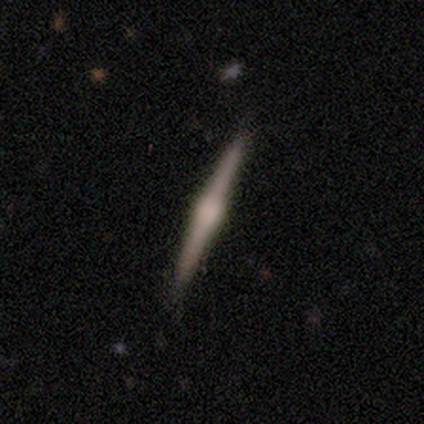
Q: Smooth or featured?
A: featured or disk (100%)
Q: Edge-on disk?
A: yes (100%)
Q: Edge-on bulge?
A: rounded (67%); runner-up: none (33%)
Q: Merging?
A: none (100%)